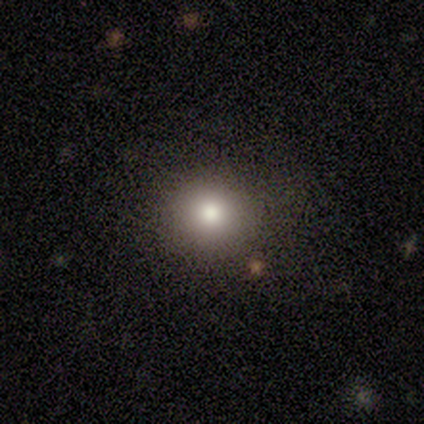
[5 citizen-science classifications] Volunteers were most divided on "smooth or featured": smooth: 80%, star or artifact: 20%, featured or disk: 0%. More confident: how rounded — round (100%); merging — none (100%).